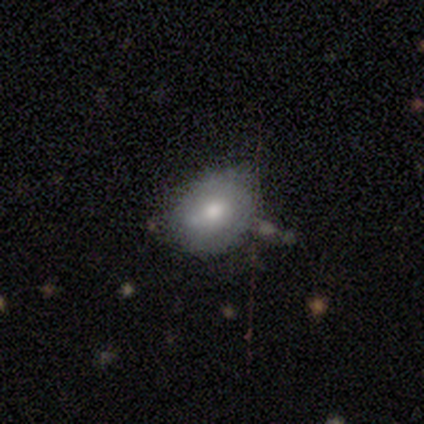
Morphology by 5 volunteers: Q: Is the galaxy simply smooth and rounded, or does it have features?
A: smooth — 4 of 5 (80%).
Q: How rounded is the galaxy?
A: round — 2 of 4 (50%, tied with in between).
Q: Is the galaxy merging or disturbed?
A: minor disturbance — 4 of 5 (80%).